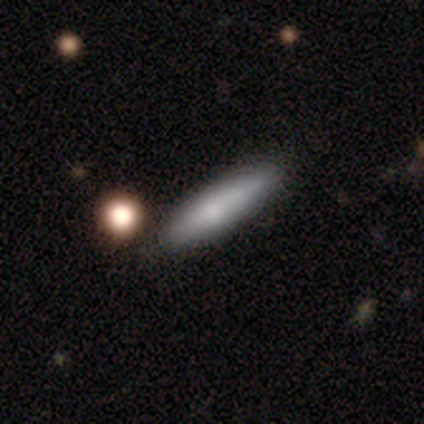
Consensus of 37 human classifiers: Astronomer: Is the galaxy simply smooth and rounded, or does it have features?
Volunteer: smooth — 68%.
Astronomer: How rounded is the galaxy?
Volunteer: cigar-shaped — 84%.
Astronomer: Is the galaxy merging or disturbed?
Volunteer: none — 56%.